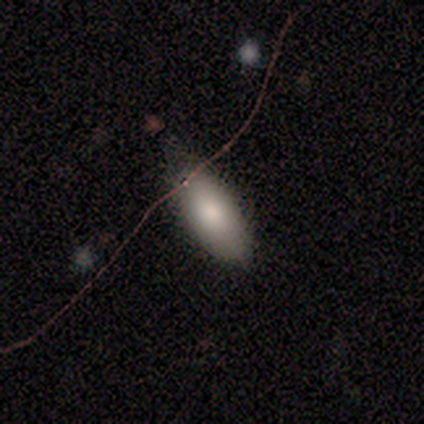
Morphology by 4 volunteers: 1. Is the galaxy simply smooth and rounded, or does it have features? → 100% smooth, 0% featured or disk, 0% star or artifact.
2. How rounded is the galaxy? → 50% in between (tied), 50% cigar-shaped (tied), 0% round.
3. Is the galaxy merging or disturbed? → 75% none, 25% minor disturbance, 0% major disturbance, 0% merger.